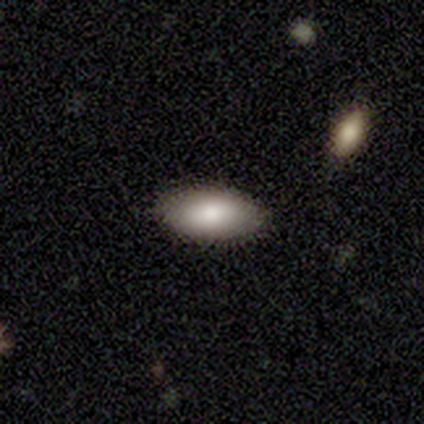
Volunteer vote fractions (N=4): This is clearly a smooth galaxy (100%). How rounded: clearly in between (100%). Merging: likely none (75%).